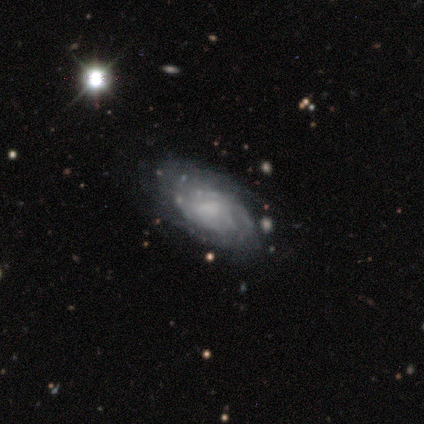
Smooth or featured?
  - featured or disk: 60% *
  - smooth: 40%
  - star or artifact: 0%
Edge-on disk?
  - no: 100% *
  - yes: 0%
Bar?
  - no: 100% *
  - strong: 0%
  - weak: 0%
Spiral arms?
  - yes: 100% *
  - no: 0%
Spiral winding?
  - tight: 100% *
  - medium: 0%
  - loose: 0%
Spiral arm count?
  - can't tell: 67% *
  - 2: 33%
  - 1: 0%
  - 3: 0%
  - 4: 0%
  - more than 4: 0%
Bulge size?
  - none: 67% *
  - small: 33%
  - dominant: 0%
  - large: 0%
  - moderate: 0%
Merging?
  - none: 40% * (tied)
  - major disturbance: 40% * (tied)
  - merger: 20%
  - minor disturbance: 0%